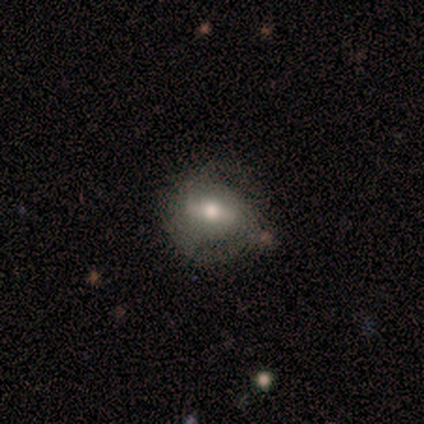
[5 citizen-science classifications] Smooth or featured? smooth (60%)
How rounded? round (67%)
Merging? none (80%)